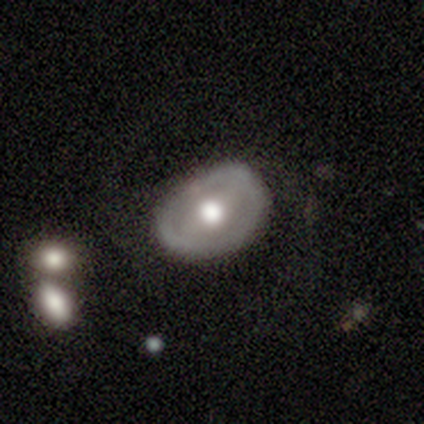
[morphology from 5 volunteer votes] A featured or disk galaxy (60%) with a strong bar (67%), no spiral arms (100%) and a moderate central bulge (100%). Merging: none (80%).